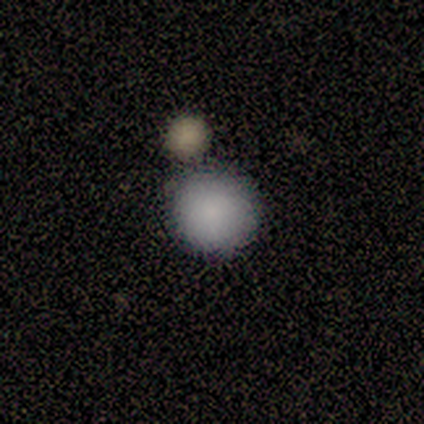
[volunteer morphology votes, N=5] smooth-or-featured: smooth: 80% | star or artifact: 20% | featured or disk: 0%
  how-rounded: round: 100% | in between: 0% | cigar-shaped: 0%
  merging: none: 75% | merger: 25% | minor disturbance: 0% | major disturbance: 0%